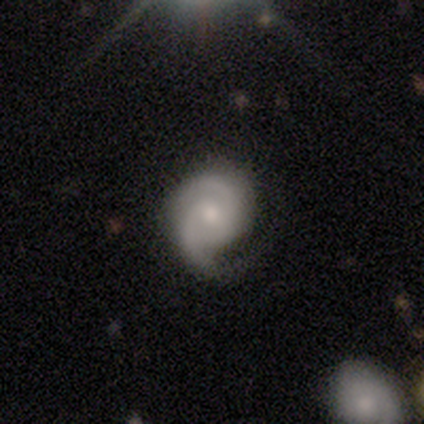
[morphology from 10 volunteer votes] Overall: featured or disk (100%). Edge-on disk: no (100%). Bar: no (70%). Spiral arms: yes (100%). Spiral arm count: 2 (100%). Spiral winding: tight (50%; medium 30%). Bulge size: small (60%; moderate 30%). Merging: none (70%).